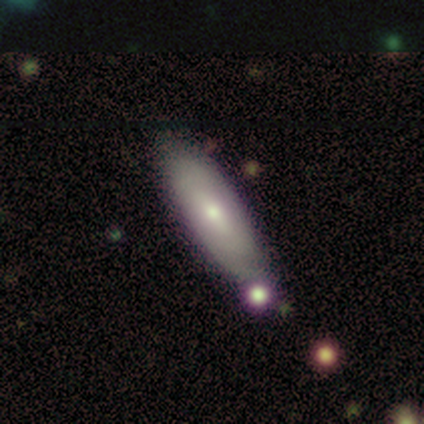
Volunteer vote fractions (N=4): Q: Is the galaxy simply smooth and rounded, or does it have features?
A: smooth — 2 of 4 (50%, tied with featured or disk).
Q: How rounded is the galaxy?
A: in between — 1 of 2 (50%, tied with cigar-shaped).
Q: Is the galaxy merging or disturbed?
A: none — 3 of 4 (75%).